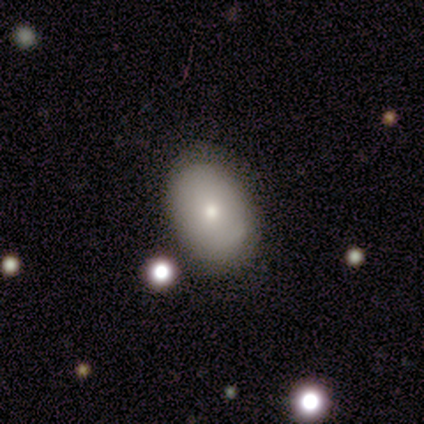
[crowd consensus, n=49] This appears to be a smooth galaxy with no disk features (73%) that is in between round and cigar-shaped (92%). Merging: none (79%).